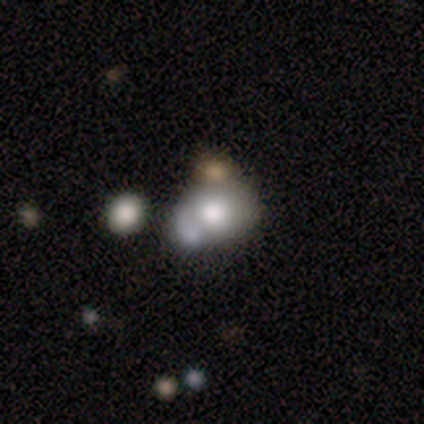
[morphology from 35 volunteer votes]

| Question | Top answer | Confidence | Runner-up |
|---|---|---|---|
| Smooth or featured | smooth | 66% | featured or disk (23%) |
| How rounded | in between | 57% | round (43%) |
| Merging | merger | 58% | — |